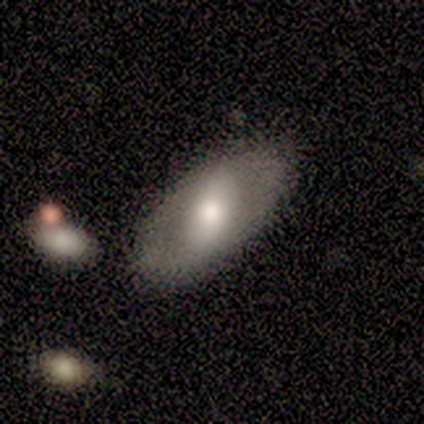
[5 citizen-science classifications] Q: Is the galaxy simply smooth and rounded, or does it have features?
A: featured or disk — 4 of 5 (80%).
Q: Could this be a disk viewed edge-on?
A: no — 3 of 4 (75%).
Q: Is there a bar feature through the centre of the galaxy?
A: strong — 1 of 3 (33%, tied with weak and no).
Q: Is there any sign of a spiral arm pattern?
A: no — 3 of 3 (100%).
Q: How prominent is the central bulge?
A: moderate — 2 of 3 (67%).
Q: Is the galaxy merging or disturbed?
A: none — 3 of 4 (75%).